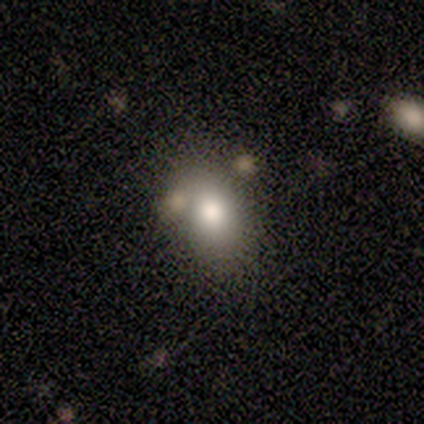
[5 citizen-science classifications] This is clearly a smooth galaxy (80%). How rounded: likely in between (75%). Merging: clearly none (80%).